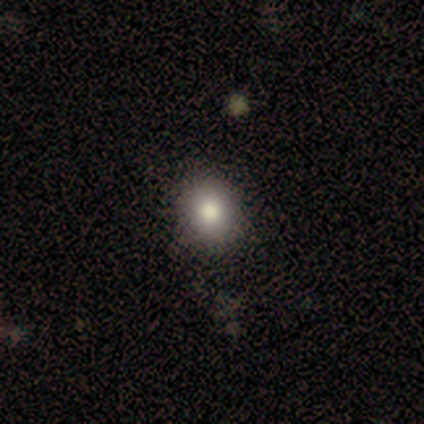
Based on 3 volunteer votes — Smooth or featured? 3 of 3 (100%) said smooth. How rounded? 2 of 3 (67%) said round. Merging? 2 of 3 (67%) said minor disturbance.